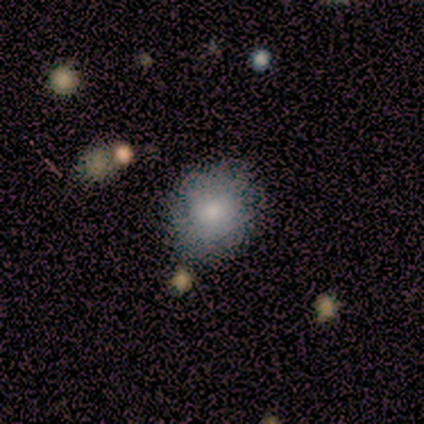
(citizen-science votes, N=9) Morphology: type=smooth (56%); roundness=round (80%); merging=none (88%).